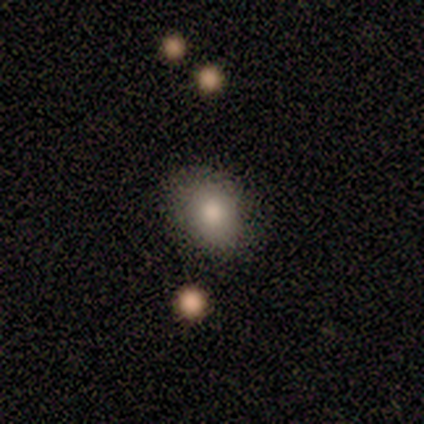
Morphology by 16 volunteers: smooth 81%, featured or disk 19%, star or artifact 0%. Down the decision tree: how rounded — in between (62%); merging — none (81%).